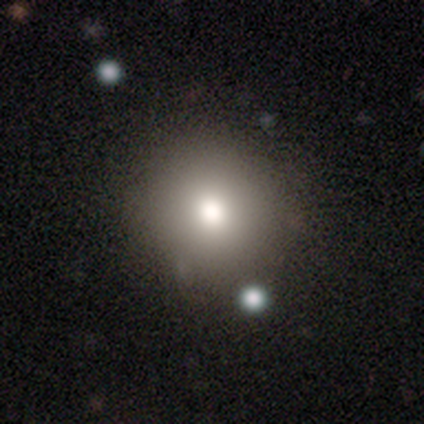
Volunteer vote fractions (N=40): Q: Smooth or featured?
A: smooth (85%); runner-up: star or artifact (10%)
Q: How rounded?
A: round (94%); runner-up: in between (6%)
Q: Merging?
A: none (67%); runner-up: minor disturbance (8%)